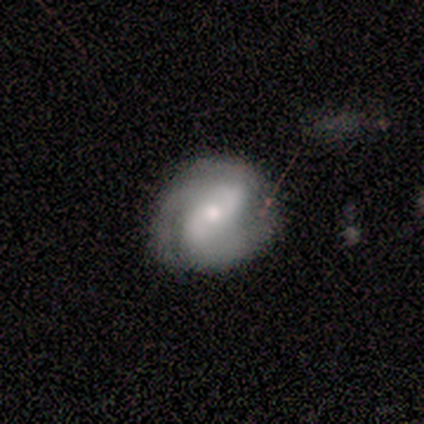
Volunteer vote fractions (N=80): Smooth or featured?
  - featured or disk: 81% *
  - smooth: 11%
  - star or artifact: 8%
Edge-on disk?
  - no: 100% *
  - yes: 0%
Bar?
  - weak: 34% * (tied)
  - no: 34% * (tied)
  - strong: 32%
Spiral arms?
  - yes: 91% *
  - no: 9%
Spiral winding?
  - tight: 47% *
  - medium: 39%
  - loose: 14%
Spiral arm count?
  - 2: 80% *
  - 3: 15%
  - 1: 3%
  - can't tell: 2%
  - 4: 0%
  - more than 4: 0%
Bulge size?
  - moderate: 49% *
  - small: 37%
  - large: 14%
  - dominant: 0%
  - none: 0%
Merging?
  - none: 73% *
  - minor disturbance: 18%
  - major disturbance: 8%
  - merger: 1%